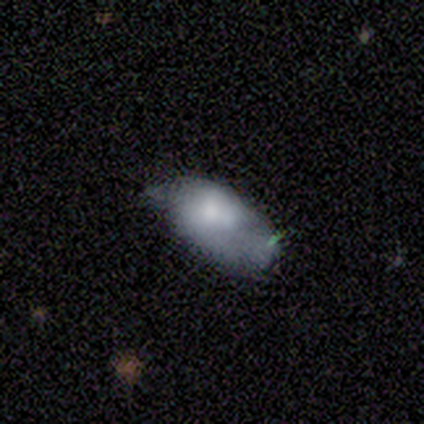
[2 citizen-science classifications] Smooth or featured: smooth — 50% (tied with featured or disk — 50%)
How rounded: in between — 100%
Merging: none — 50% (tied with minor disturbance — 50%)